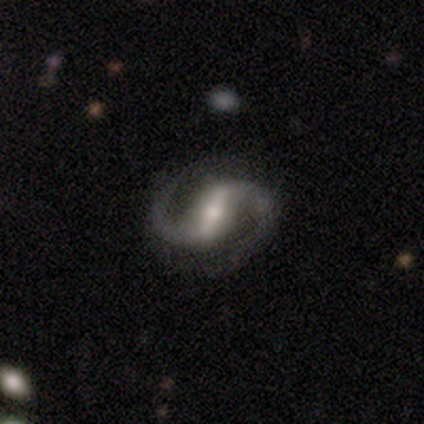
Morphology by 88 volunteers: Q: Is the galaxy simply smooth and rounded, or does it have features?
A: featured or disk — 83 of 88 (94%).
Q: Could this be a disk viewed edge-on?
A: no — 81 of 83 (98%).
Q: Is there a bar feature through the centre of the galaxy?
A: strong — 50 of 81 (62%).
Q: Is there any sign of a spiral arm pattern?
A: yes — 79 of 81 (98%).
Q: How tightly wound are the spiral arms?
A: medium — 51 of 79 (65%).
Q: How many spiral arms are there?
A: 2 — 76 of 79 (96%).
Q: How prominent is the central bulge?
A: moderate — 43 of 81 (53%).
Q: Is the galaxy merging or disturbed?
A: none — 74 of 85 (87%).